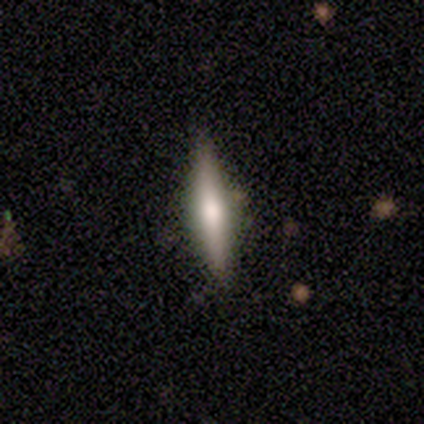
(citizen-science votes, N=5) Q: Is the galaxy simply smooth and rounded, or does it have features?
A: smooth — 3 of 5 (60%).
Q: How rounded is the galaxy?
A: cigar-shaped — 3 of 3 (100%).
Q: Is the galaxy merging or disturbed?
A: none — 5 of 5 (100%).